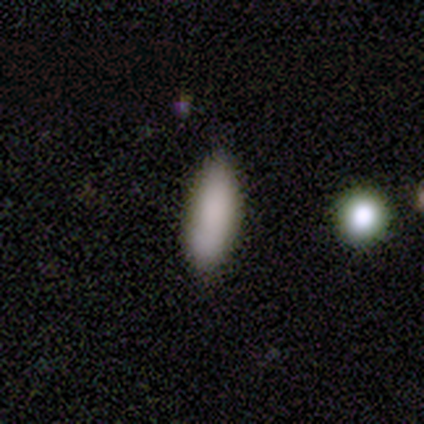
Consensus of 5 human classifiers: Q: Smooth or featured?
A: smooth (80%); runner-up: featured or disk (20%)
Q: How rounded?
A: in between (75%); runner-up: cigar-shaped (25%)
Q: Merging?
A: none (60%); runner-up: minor disturbance (40%)